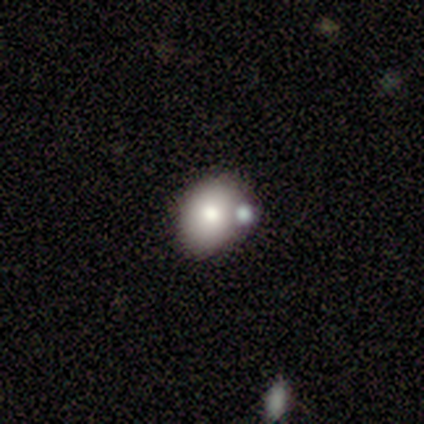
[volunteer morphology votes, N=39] This appears to be a smooth galaxy with no disk features (79%) that is in between round and cigar-shaped (68%). Merging: none (65%).